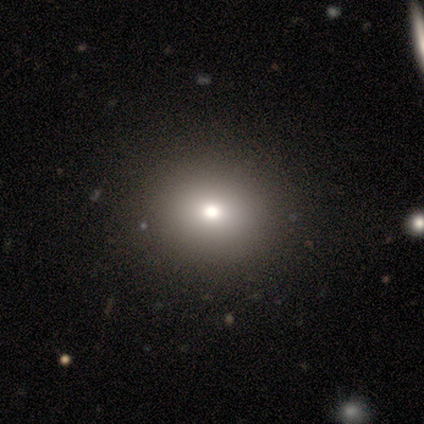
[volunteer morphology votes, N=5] smooth-or-featured: smooth: 40% (tied) | star or artifact: 40% (tied) | featured or disk: 20%
  how-rounded: round: 100% | in between: 0% | cigar-shaped: 0%
  merging: none: 33% (tied) | minor disturbance: 33% (tied) | major disturbance: 33% (tied) | merger: 0%